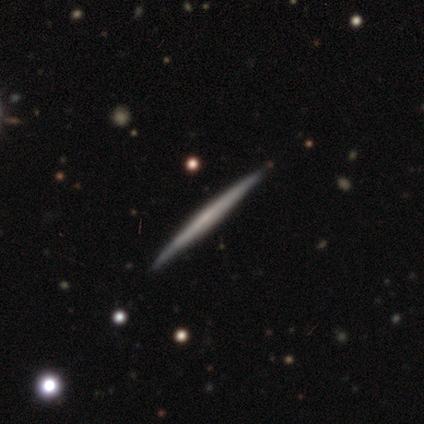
Smooth or featured: featured or disk — 80% (smooth — 20%)
Edge-on disk: yes — 100%
Edge-on bulge: none — 75% (boxy — 25%)
Merging: none — 60% (minor disturbance — 40%)